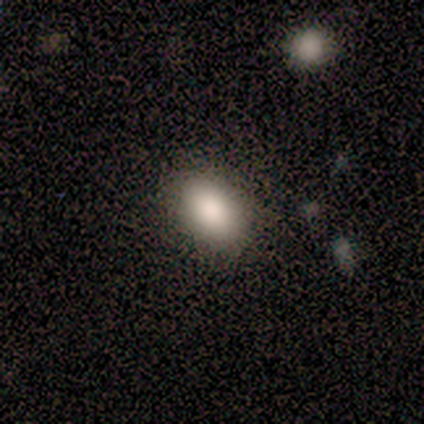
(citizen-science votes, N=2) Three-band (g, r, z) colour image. It shows a smooth galaxy with no disk features (100%) that is round (50%, tied with in between). Merging: none (100%).